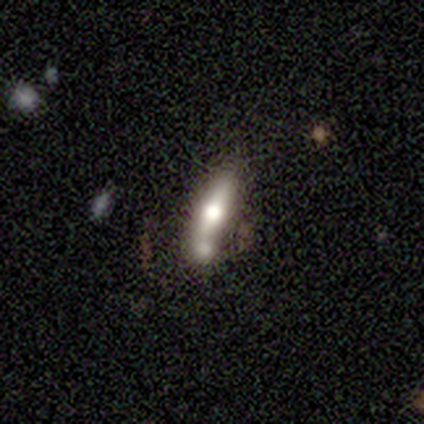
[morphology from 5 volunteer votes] Smooth or featured? 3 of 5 (60%) said smooth. How rounded? 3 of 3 (100%) said cigar-shaped. Merging? 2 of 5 (40%, tied with merger) said none.